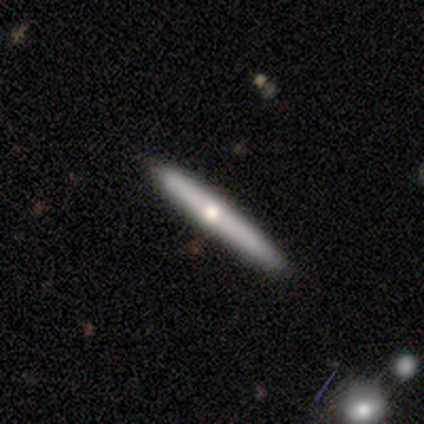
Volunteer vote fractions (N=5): Smooth or featured? featured or disk (60%)
Edge-on disk? yes (100%)
Edge-on bulge? rounded (100%)
Merging? none (60%)